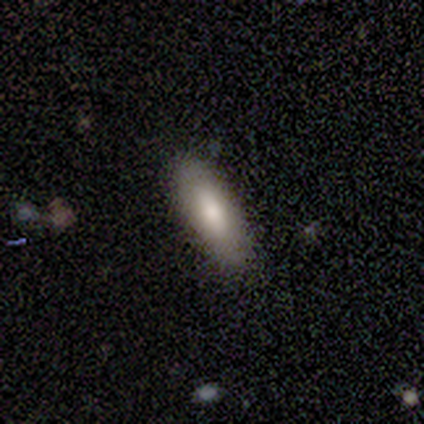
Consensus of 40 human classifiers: Morphology: type=smooth (78%); roundness=in between (68%); merging=none (85%).